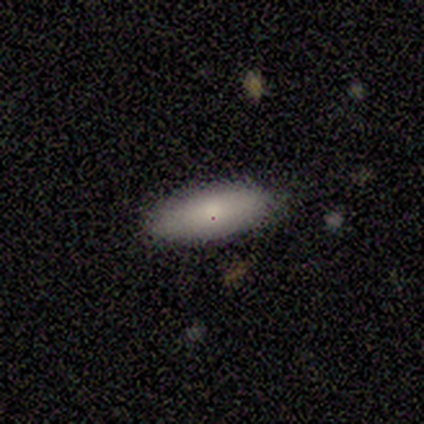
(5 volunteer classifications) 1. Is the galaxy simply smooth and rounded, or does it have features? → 100% smooth, 0% featured or disk, 0% star or artifact.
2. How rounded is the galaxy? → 80% in between, 20% cigar-shaped, 0% round.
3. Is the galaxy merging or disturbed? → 80% none, 20% minor disturbance, 0% major disturbance, 0% merger.